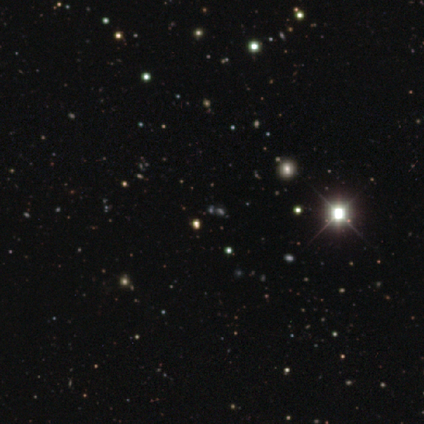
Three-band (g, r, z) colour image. It shows a star or artifact, not a galaxy (86%).